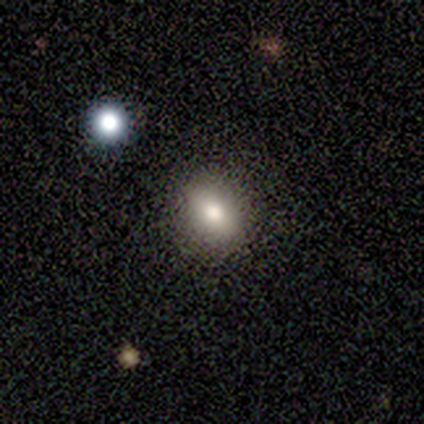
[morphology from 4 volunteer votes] Smooth or featured? 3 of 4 (75%) said smooth. How rounded? 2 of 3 (67%) said in between. Merging? 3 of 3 (100%) said none.